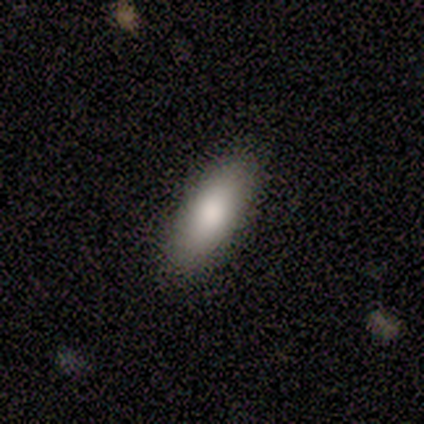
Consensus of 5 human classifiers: Smooth or featured? smooth (80%)
How rounded? in between (100%)
Merging? none (80%)